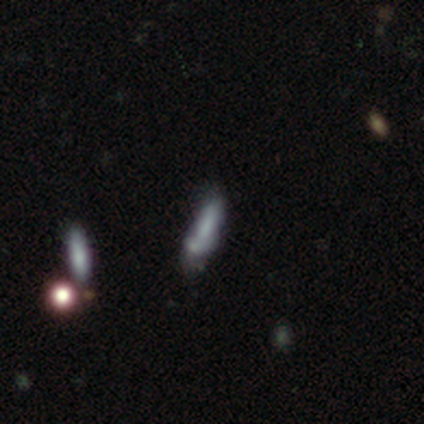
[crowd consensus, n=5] Overall: smooth (60%; star or artifact 40%). How rounded: in between (67%; cigar-shaped 33%). Merging: none (67%; minor disturbance 33%).